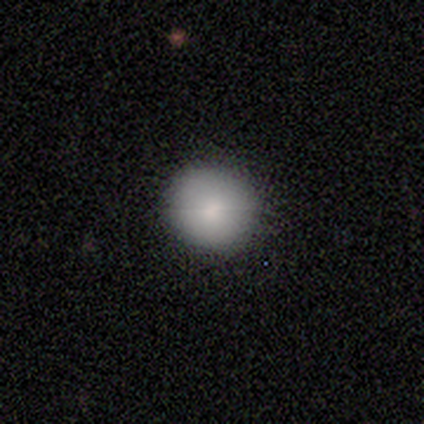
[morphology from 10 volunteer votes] smooth 90%, featured or disk 10%, star or artifact 0%. Down the decision tree: how rounded — round (100%); merging — none (80%).